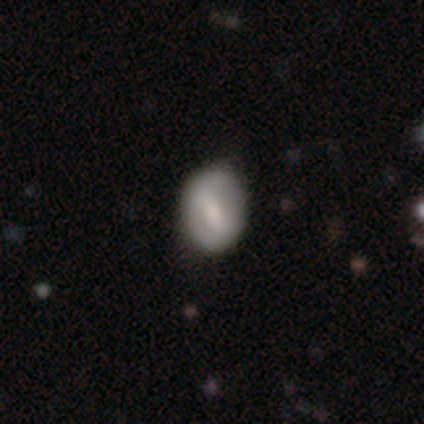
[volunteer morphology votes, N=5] Smooth or featured: featured or disk — 80% (smooth — 20%)
Edge-on disk: no — 100%
Bar: strong — 50% (tied with weak — 50%)
Spiral arms: yes — 75% (no — 25%)
Spiral winding: medium — 67% (tight — 33%)
Spiral arm count: 2 — 67% (can't tell — 33%)
Bulge size: moderate — 50% (tied with small — 50%)
Merging: none — 80% (major disturbance — 20%)